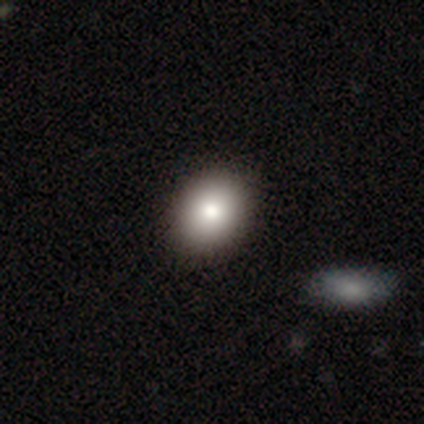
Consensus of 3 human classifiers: A smooth galaxy with no disk features (33%, tied with featured or disk and star or artifact) that is round (100%).

Vote fractions:
- Smooth or featured? smooth: 33% (tied) / featured or disk: 33% (tied) / star or artifact: 33% (tied)
- How rounded? round: 100% / in between: 0% / cigar-shaped: 0%
- Merging? none: 100% / minor disturbance: 0% / major disturbance: 0% / merger: 0%